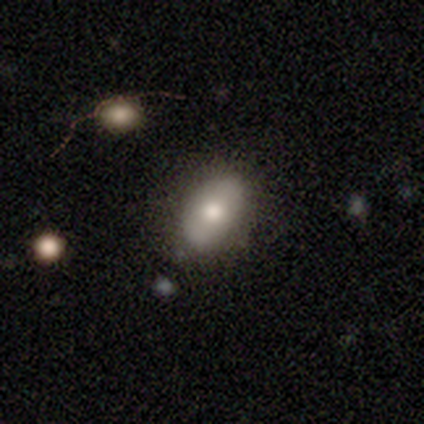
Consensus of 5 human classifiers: Smooth or featured? smooth (60%)
How rounded? in between (100%)
Merging? none (100%)